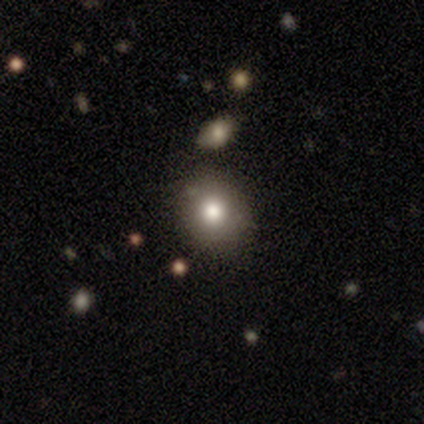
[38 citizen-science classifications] Q: Smooth or featured?
A: smooth (79%); runner-up: featured or disk (11%)
Q: How rounded?
A: round (90%); runner-up: in between (10%)
Q: Merging?
A: none (85%); runner-up: minor disturbance (9%)